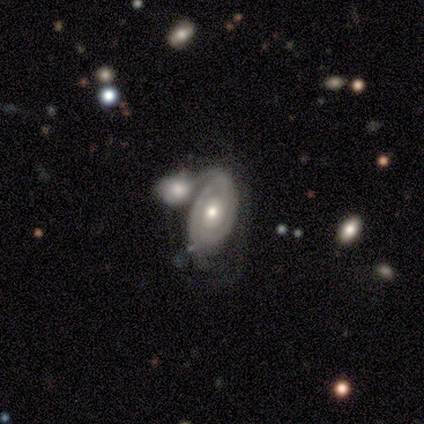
Smooth or featured? featured or disk (87%)
Edge-on disk? no (97%)
Bar? no (88%)
Spiral arms? yes (80%)
Spiral winding? tight (84%)
Spiral arm count? 2 (49%)
Bulge size? moderate (75%)
Merging? merger (53%)